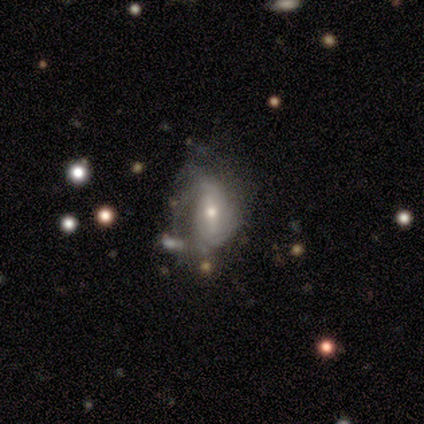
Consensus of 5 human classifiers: smooth_or_featured: featured or disk (p=1.00)
disk_edge_on: no (p=1.00)
bar: weak (p=0.40) [tied with: no p=0.40]
has_spiral_arms: yes (p=1.00)
spiral_winding: tight (p=0.40) [tied with: medium p=0.40]
spiral_arm_count: can't tell (p=0.60) [alt: 2 p=0.40]
bulge_size: small (p=0.80) [alt: moderate p=0.20]
merging: none (p=0.40) [tied with: minor disturbance p=0.40]